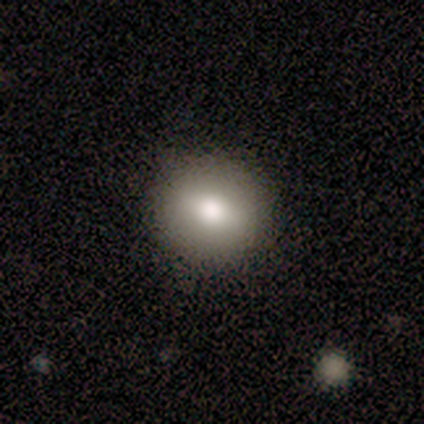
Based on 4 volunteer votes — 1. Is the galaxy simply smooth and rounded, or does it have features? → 50% smooth, 25% featured or disk, 25% star or artifact.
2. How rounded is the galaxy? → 50% round (tied), 50% in between (tied), 0% cigar-shaped.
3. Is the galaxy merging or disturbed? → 100% none, 0% minor disturbance, 0% major disturbance, 0% merger.